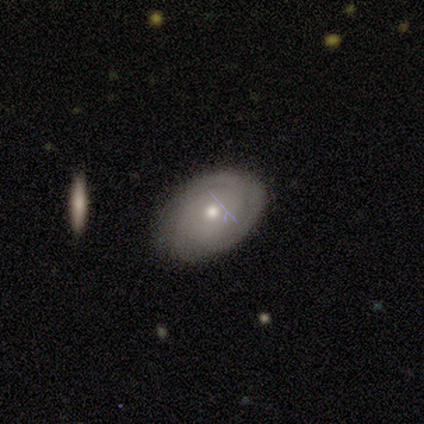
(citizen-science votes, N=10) Volunteers were most divided on "smooth or featured" (2-way tie): smooth: 50%, featured or disk: 50%, star or artifact: 0%. More confident: how rounded — in between (80%); merging — none (70%).